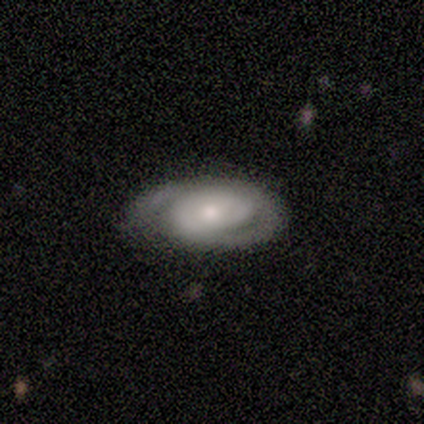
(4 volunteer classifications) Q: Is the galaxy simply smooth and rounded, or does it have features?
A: featured or disk — 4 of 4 (100%).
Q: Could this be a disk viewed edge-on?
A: no — 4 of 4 (100%).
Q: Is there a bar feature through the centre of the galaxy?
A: no — 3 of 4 (75%).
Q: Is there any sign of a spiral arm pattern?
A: yes — 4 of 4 (100%).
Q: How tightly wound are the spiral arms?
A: tight — 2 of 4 (50%, tied with medium).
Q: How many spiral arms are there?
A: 2 — 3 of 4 (75%).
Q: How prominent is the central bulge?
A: small — 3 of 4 (75%).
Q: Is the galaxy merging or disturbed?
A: none — 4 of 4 (100%).